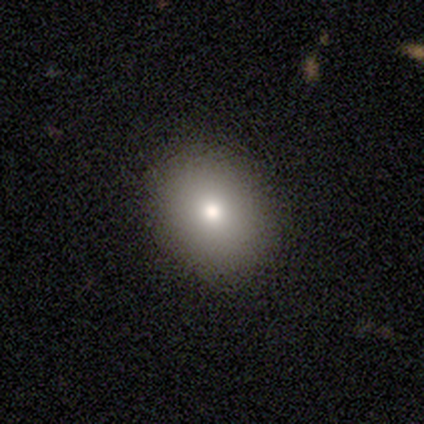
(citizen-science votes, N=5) Morphology: type=smooth (100%); roundness=in between (80%); merging=none (80%).